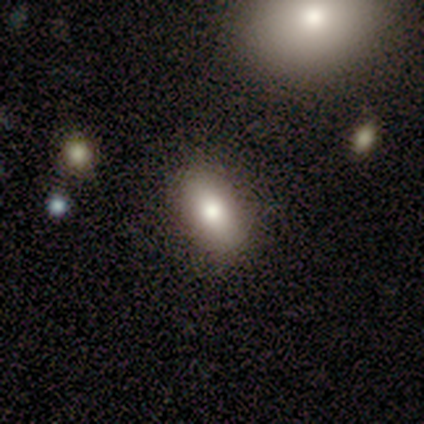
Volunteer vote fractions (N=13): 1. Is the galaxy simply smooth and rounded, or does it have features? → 62% smooth, 38% featured or disk, 0% star or artifact.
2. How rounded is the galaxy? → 75% in between, 25% round, 0% cigar-shaped.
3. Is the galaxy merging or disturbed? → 85% none, 8% minor disturbance, 8% merger, 0% major disturbance.